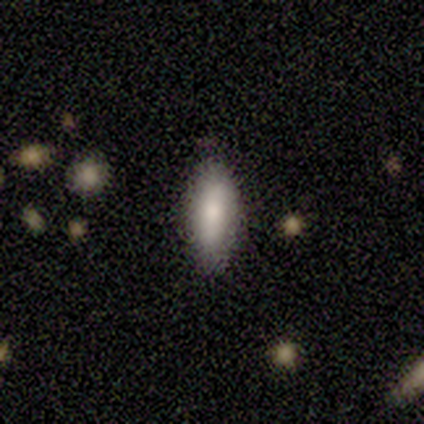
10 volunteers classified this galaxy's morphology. type=smooth (90%); roundness=in between (100%); merging=none (70%).